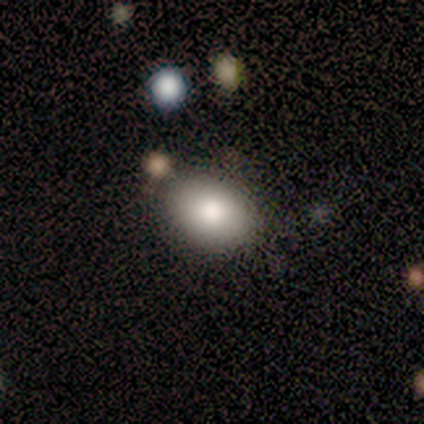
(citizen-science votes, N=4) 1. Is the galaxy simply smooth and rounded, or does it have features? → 100% smooth, 0% featured or disk, 0% star or artifact.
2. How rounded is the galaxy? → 100% in between, 0% round, 0% cigar-shaped.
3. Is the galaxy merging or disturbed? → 75% none, 25% minor disturbance, 0% major disturbance, 0% merger.